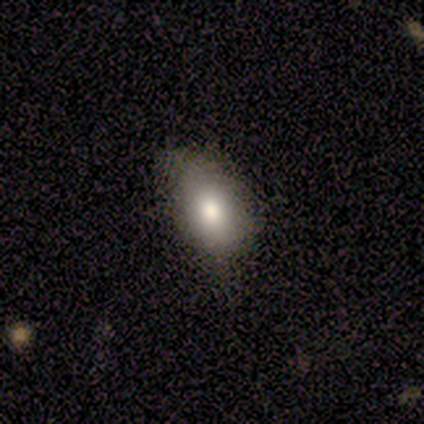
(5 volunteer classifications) Volunteers were most divided on "merging": major disturbance: 60%, minor disturbance: 40%, none: 0%, merger: 0%. More confident: smooth or featured — smooth (100%); how rounded — in between (100%).